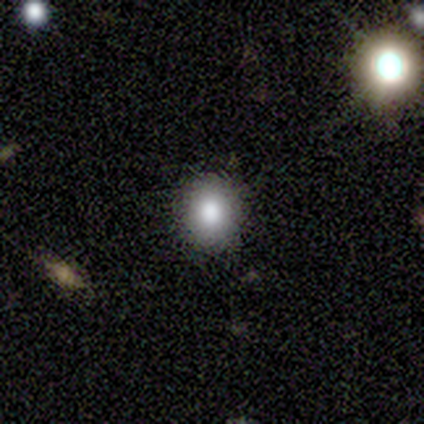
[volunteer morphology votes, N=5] type=smooth (40%, tied with star or artifact); roundness=round (100%); merging=none (100%).